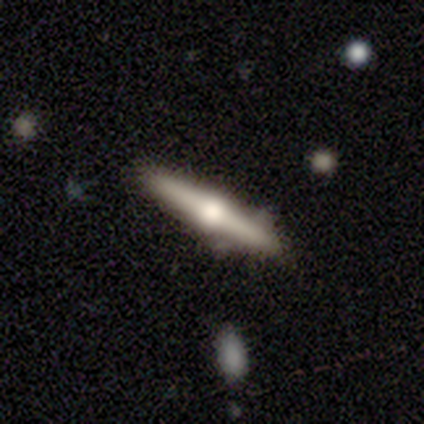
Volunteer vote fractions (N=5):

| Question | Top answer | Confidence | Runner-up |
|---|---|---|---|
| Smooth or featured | smooth | 60% | featured or disk (40%) |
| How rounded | cigar-shaped | 100% | — |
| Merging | none | 100% | — |